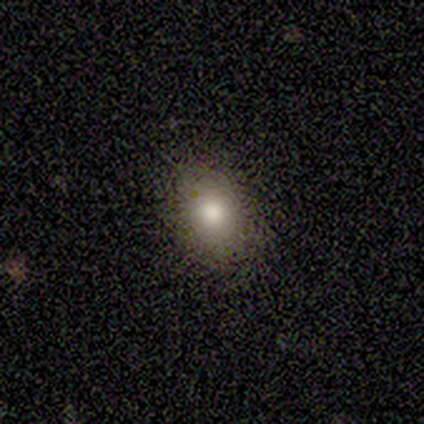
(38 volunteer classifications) Smooth or featured? 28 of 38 (74%) said smooth. How rounded? 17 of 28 (61%) said in between. Merging? 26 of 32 (81%) said none.